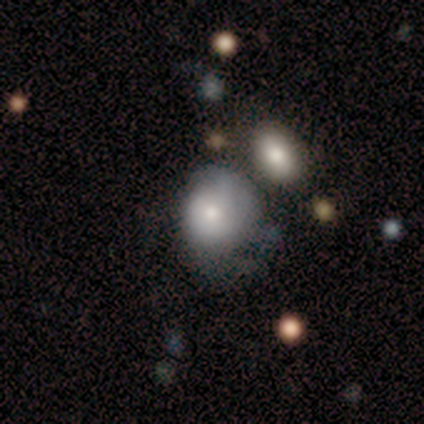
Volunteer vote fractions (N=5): Smooth or featured? smooth (80%)
How rounded? round (75%)
Merging? minor disturbance (60%)